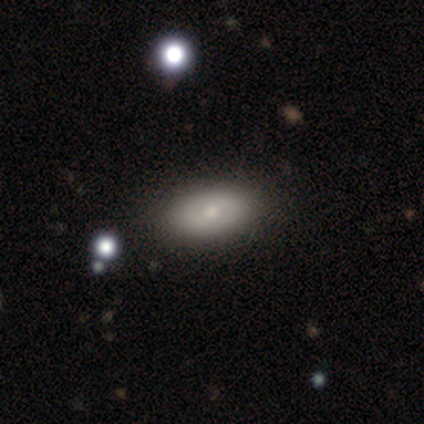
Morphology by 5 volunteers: A smooth galaxy with no disk features (100%) that is in between round and cigar-shaped (100%). Merging: none (100%).